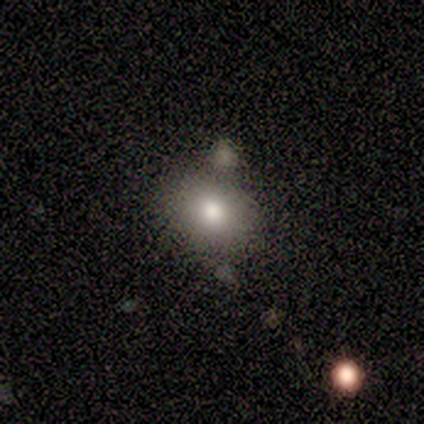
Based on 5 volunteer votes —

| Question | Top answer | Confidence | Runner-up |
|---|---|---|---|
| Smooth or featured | smooth | 80% | star or artifact (20%) |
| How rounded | round | 75% | in between (25%) |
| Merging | merger | 50% | none (25%) |